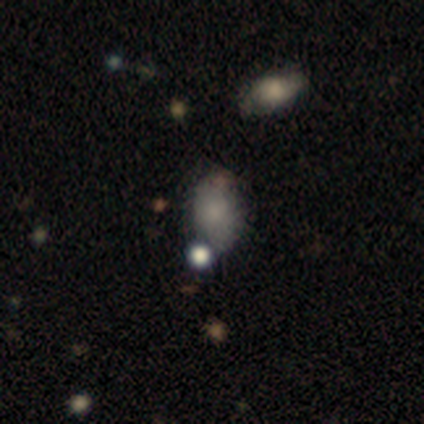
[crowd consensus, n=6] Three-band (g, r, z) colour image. It shows a smooth galaxy with no disk features (50%, tied with featured or disk) that is in between round and cigar-shaped (100%). Merging: none (67%).